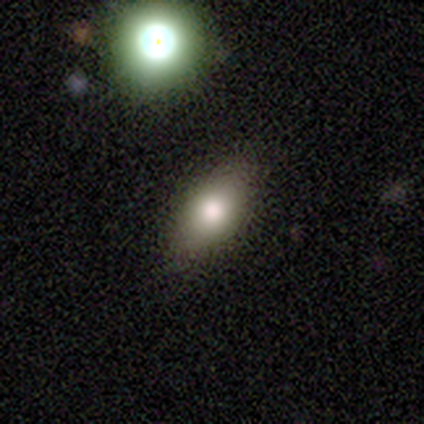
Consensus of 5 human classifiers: Smooth or featured?
  - smooth: 100% *
  - featured or disk: 0%
  - star or artifact: 0%
How rounded?
  - in between: 100% *
  - round: 0%
  - cigar-shaped: 0%
Merging?
  - none: 80% *
  - minor disturbance: 20%
  - major disturbance: 0%
  - merger: 0%